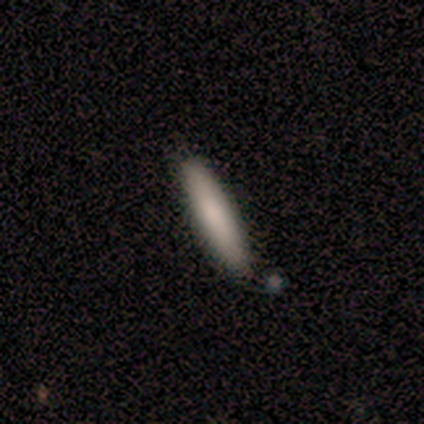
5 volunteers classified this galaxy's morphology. This appears to be a smooth galaxy with no disk features (100%) that is cigar-shaped (100%). Merging: none (80%).